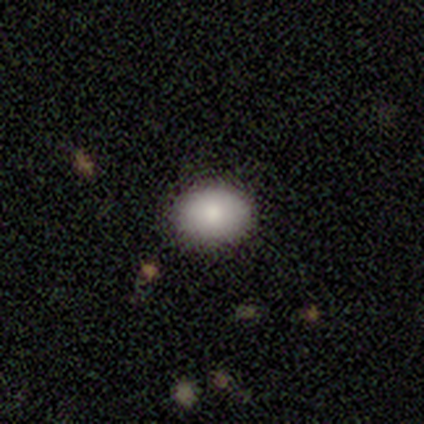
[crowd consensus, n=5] Smooth or featured?
  - smooth: 100% *
  - featured or disk: 0%
  - star or artifact: 0%
How rounded?
  - in between: 80% *
  - round: 20%
  - cigar-shaped: 0%
Merging?
  - none: 100% *
  - minor disturbance: 0%
  - major disturbance: 0%
  - merger: 0%